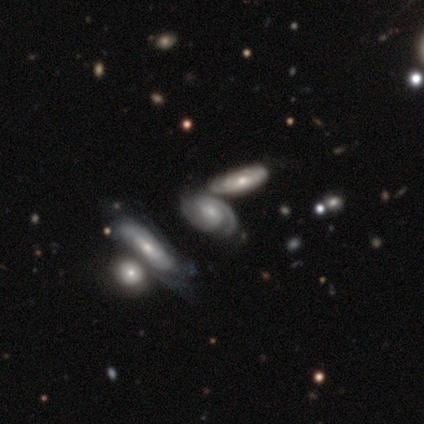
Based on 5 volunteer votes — A featured or disk galaxy (100%) with no bar (100%), 2 (75%) tight (50%, tied with medium) spiral arms (100%) and a small central bulge (75%). Merging: none (60%).